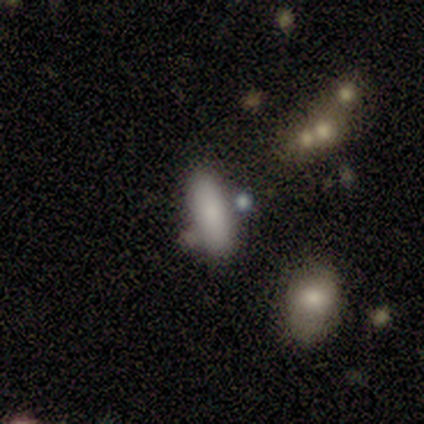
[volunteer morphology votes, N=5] Smooth or featured?
  - smooth: 100% *
  - featured or disk: 0%
  - star or artifact: 0%
How rounded?
  - in between: 80% *
  - cigar-shaped: 20%
  - round: 0%
Merging?
  - none: 60% *
  - minor disturbance: 20%
  - merger: 20%
  - major disturbance: 0%